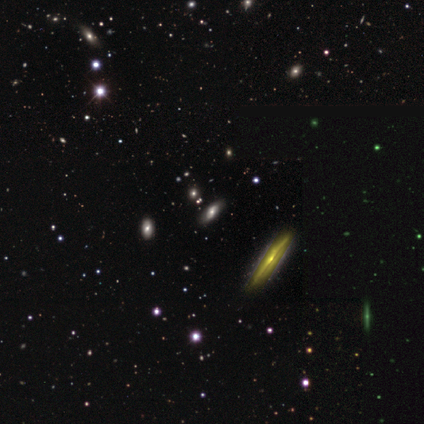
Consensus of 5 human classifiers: This appears to be a star or artifact, not a galaxy (60%).